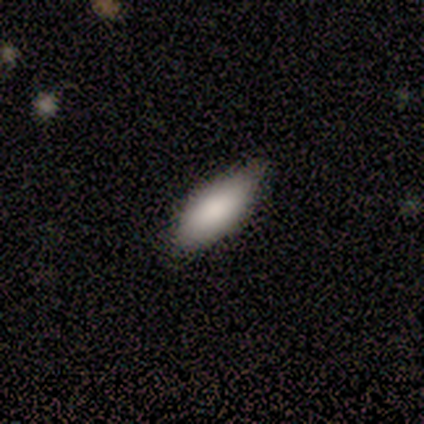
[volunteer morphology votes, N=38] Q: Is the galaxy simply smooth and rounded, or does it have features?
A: smooth — 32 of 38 (84%).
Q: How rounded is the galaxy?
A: in between — 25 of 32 (78%).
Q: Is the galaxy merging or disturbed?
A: none — 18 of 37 (49%).